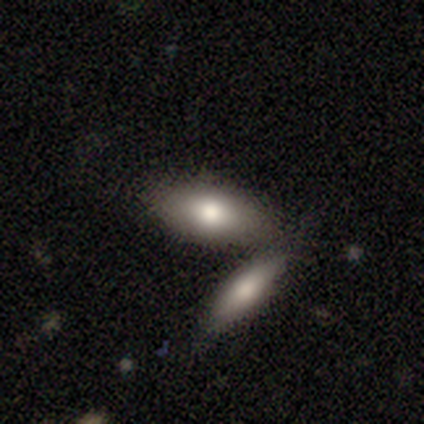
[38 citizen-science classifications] A smooth galaxy with no disk features (68%) that is in between round and cigar-shaped (88%).

Vote fractions:
- Smooth or featured? smooth: 68% / featured or disk: 26% / star or artifact: 5%
- How rounded? in between: 88% / cigar-shaped: 12% / round: 0%
- Merging? none: 42% (tied) / merger: 42% (tied) / minor disturbance: 11% / major disturbance: 6%